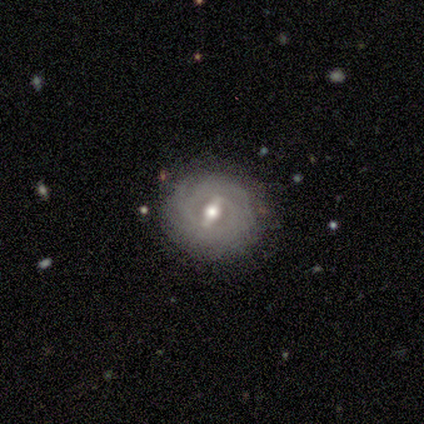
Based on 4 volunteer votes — Volunteers were most divided on "how rounded" (2-way tie): round: 50%, in between: 50%, cigar-shaped: 0%. More confident: merging — none (100%); smooth or featured — smooth (50%).